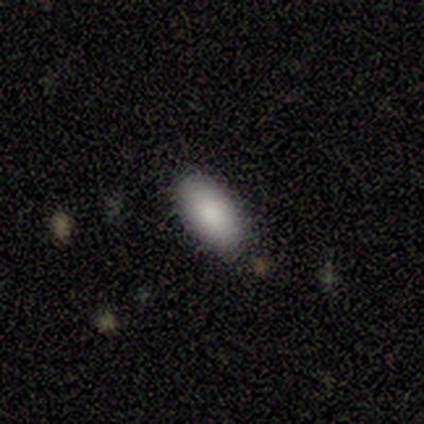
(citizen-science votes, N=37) Smooth or featured? smooth (89%)
How rounded? in between (97%)
Merging? none (82%)